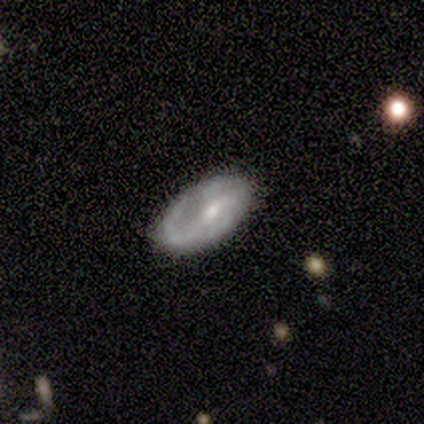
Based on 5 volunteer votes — Overall: featured or disk (60%; smooth 40%). Edge-on disk: no (67%; yes 33%). Bar: weak (100%). Spiral arms: yes (50%, tied with no). Spiral arm count: 1 (100%). Spiral winding: medium (100%). Bulge size: moderate (50%, tied with small). Merging: none (100%).